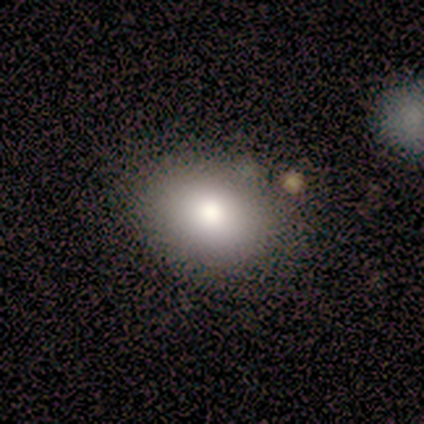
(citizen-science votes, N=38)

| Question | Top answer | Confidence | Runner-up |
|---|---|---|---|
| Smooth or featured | smooth | 68% | featured or disk (16%) |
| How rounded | in between | 69% | round (31%) |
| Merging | none | 81% | minor disturbance (12%) |